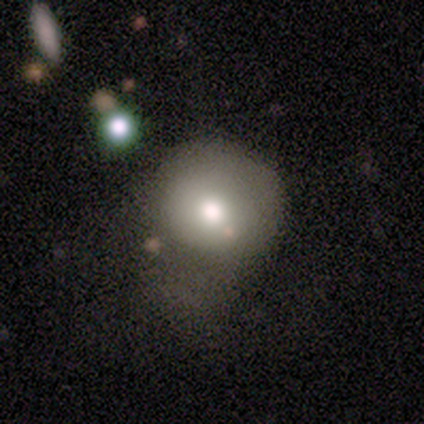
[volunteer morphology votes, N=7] A smooth galaxy with no disk features (86%) that is round (100%). Merging: major disturbance (57%).